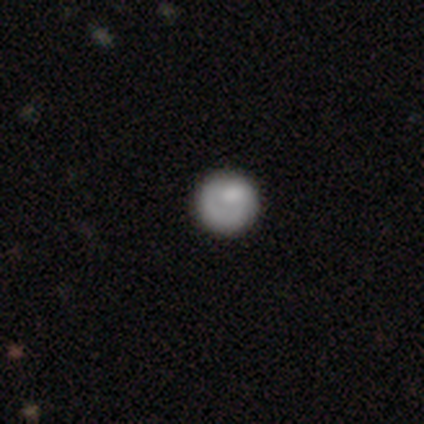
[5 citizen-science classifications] smooth 80%, featured or disk 20%, star or artifact 0%. Down the decision tree: how rounded — round (100%); merging — none (60%).